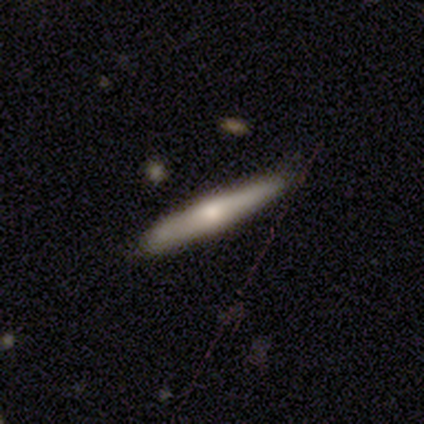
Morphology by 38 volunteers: type=smooth (47%, tied with featured or disk); roundness=cigar-shaped (100%); merging=none (81%).